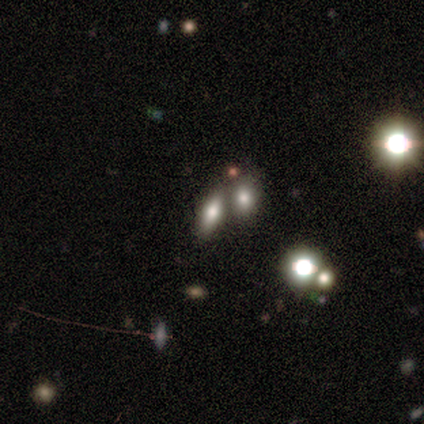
Smooth or featured?
  - smooth: 63% *
  - featured or disk: 20%
  - star or artifact: 17%
How rounded?
  - in between: 86% *
  - round: 9%
  - cigar-shaped: 5%
Merging?
  - merger: 83% *
  - none: 0%
  - minor disturbance: 0%
  - major disturbance: 0%